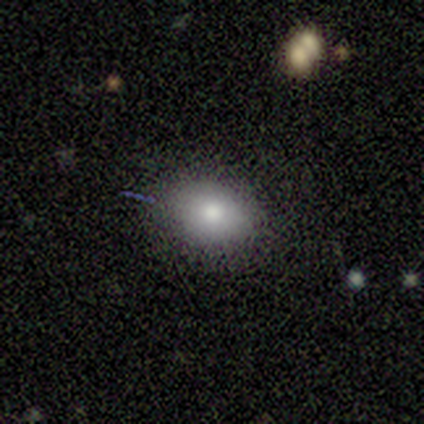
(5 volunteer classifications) Smooth or featured?
  - smooth: 80% *
  - star or artifact: 20%
  - featured or disk: 0%
How rounded?
  - in between: 75% *
  - round: 25%
  - cigar-shaped: 0%
Merging?
  - none: 50% * (tied)
  - minor disturbance: 50% * (tied)
  - major disturbance: 0%
  - merger: 0%